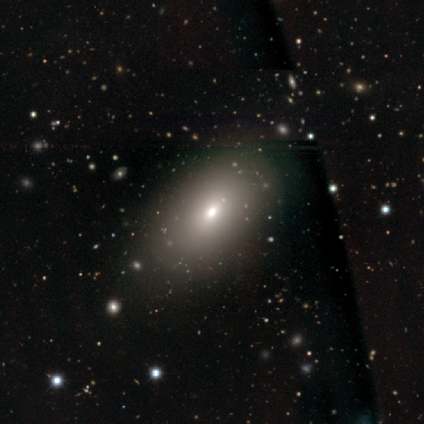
This appears to be a smooth galaxy with no disk features (33%, tied with featured or disk and star or artifact) that is in between round and cigar-shaped (100%). Merging: none (100%).